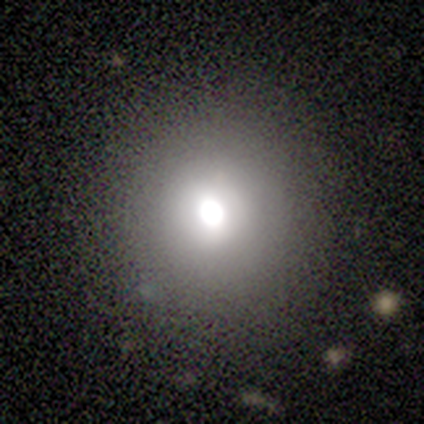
Smooth or featured? 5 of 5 (100%) said smooth. How rounded? 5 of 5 (100%) said round. Merging? 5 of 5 (100%) said none.